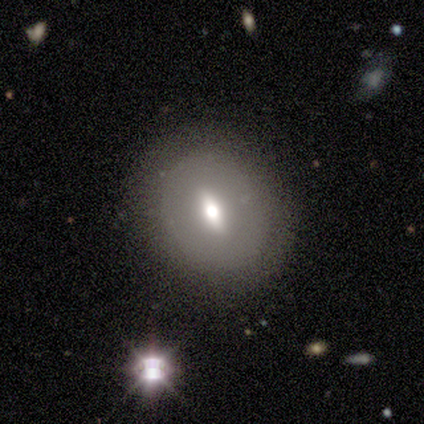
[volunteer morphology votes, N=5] Smooth or featured: featured or disk — 60% (smooth — 40%)
Edge-on disk: no — 100%
Bar: strong — 33% (tied with weak — 33%; no — 33%)
Spiral arms: no — 67% (yes — 33%)
Bulge size: moderate — 67% (large — 33%)
Merging: none — 100%